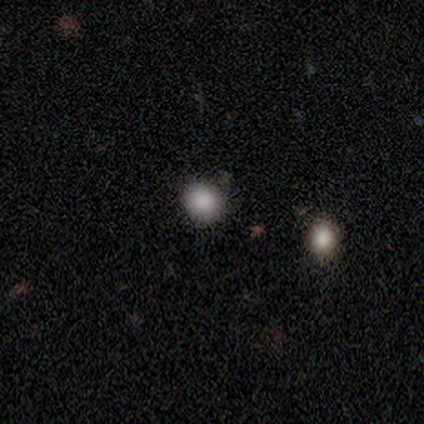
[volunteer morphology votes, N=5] Smooth or featured?
  - smooth: 100% *
  - featured or disk: 0%
  - star or artifact: 0%
How rounded?
  - round: 100% *
  - in between: 0%
  - cigar-shaped: 0%
Merging?
  - none: 60% *
  - minor disturbance: 20%
  - merger: 20%
  - major disturbance: 0%